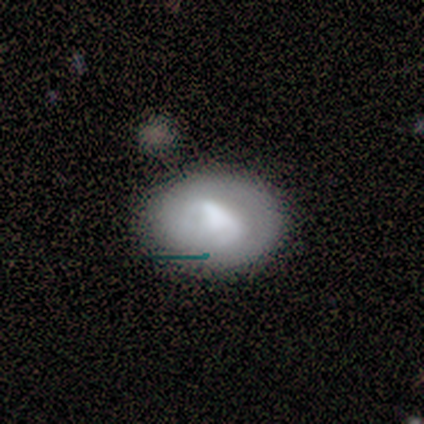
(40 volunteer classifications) Morphology: type=smooth (52%); roundness=in between (71%); merging=none (69%).